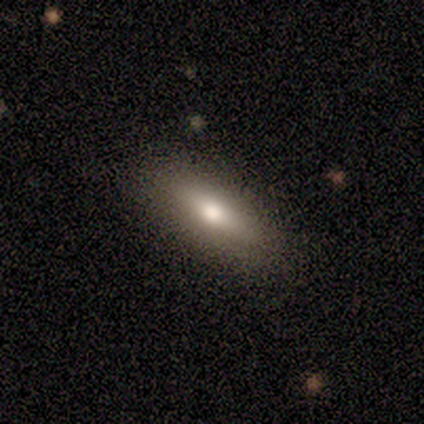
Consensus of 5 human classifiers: Overall: smooth (60%; featured or disk 40%). How rounded: in between (67%; cigar-shaped 33%). Merging: none (100%).